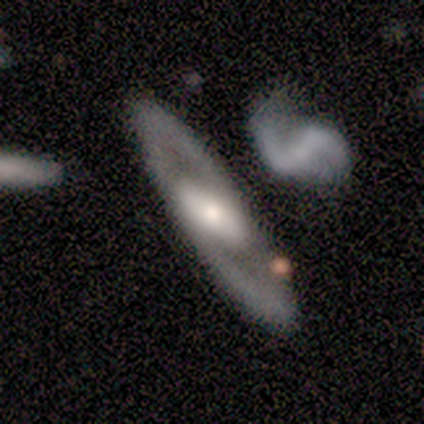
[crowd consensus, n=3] Overall: featured or disk (67%; smooth 33%). Edge-on disk: no (100%). Bar: weak (100%). Spiral arms: yes (100%). Spiral arm count: 2 (100%). Spiral winding: medium (100%). Bulge size: moderate (50%, tied with small). Merging: none (67%; minor disturbance 33%).